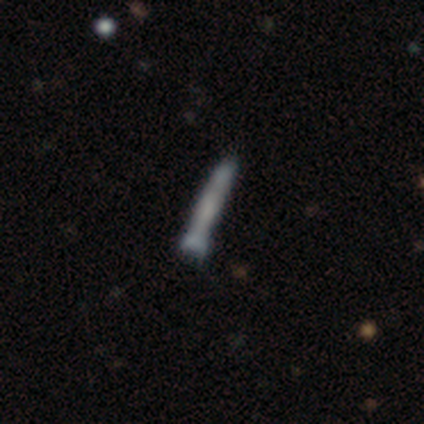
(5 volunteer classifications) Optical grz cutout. It shows a featured or disk galaxy (40%, tied with star or artifact) viewed edge-on (100%) with a boxy central bulge (50%, tied with none). Merging: minor disturbance (67%).